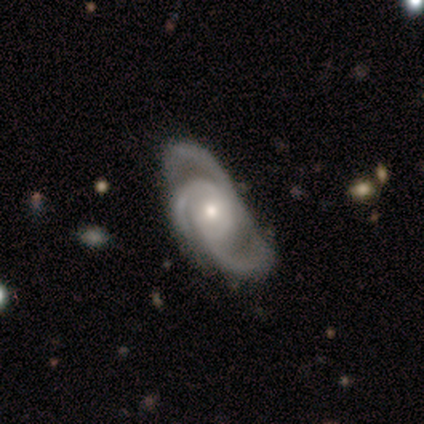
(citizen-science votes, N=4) Smooth or featured? 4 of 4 (100%) said featured or disk. Edge-on disk? 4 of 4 (100%) said no. Bar? 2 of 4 (50%, tied with no) said weak. Spiral arms? 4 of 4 (100%) said yes. Spiral winding? 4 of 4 (100%) said medium. Spiral arm count? 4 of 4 (100%) said 3. Bulge size? 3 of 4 (75%) said moderate. Merging? 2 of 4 (50%, tied with major disturbance) said none.